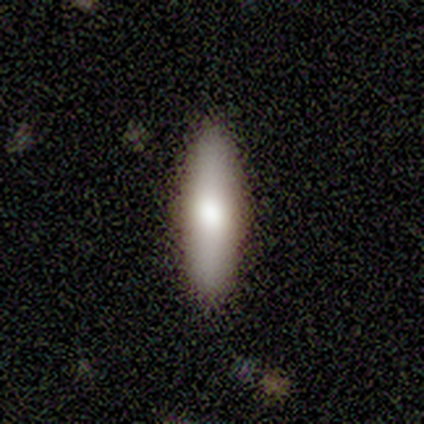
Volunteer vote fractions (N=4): This is likely a smooth galaxy (75%). How rounded: clearly cigar-shaped (100%). Merging: clearly none (100%).